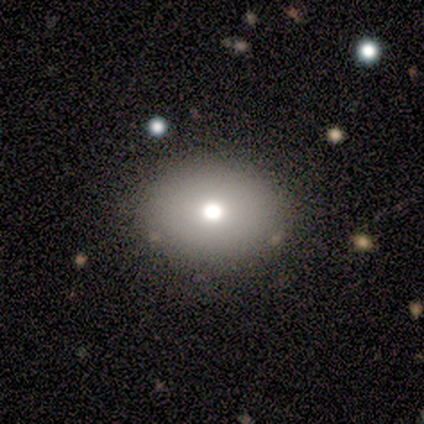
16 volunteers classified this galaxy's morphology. A smooth galaxy with no disk features (75%) that is in between round and cigar-shaped (67%). Merging: none (100%).